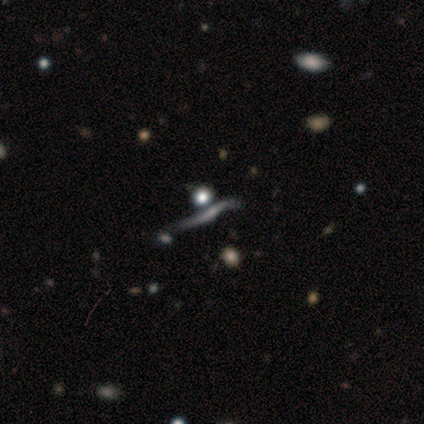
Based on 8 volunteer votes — Overall: featured or disk (75%). Edge-on disk: no (67%; yes 33%). Bar: no (100%). Spiral arms: no (100%). Bulge size: large (50%; dominant 25%). Merging: none (33%, tied with minor disturbance).